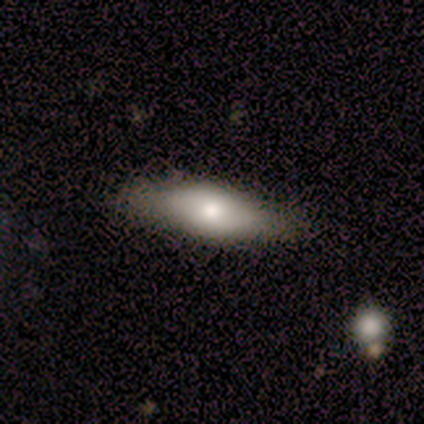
This appears to be a featured or disk galaxy (80%) viewed edge-on (50%, tied with no) with a rounded central bulge (100%). Merging: none (80%).